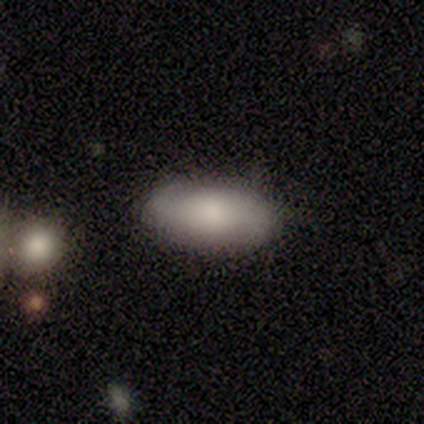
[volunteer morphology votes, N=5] A featured or disk galaxy (60%) with no bar (100%), 2 (67%) loose (67%) spiral arms (100%) and a moderate central bulge (67%). Merging: none (60%).